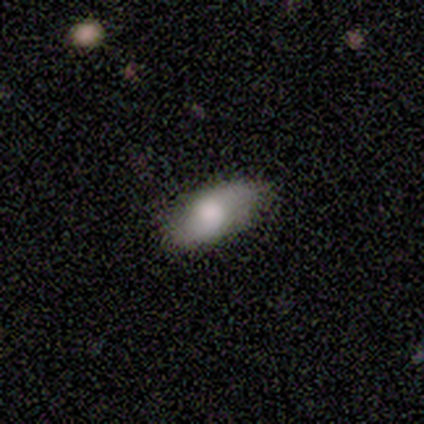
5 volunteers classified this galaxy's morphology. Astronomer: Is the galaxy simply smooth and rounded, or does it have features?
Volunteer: smooth — 40%, tied with featured or disk at 40%.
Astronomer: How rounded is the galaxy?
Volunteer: in between — 100%.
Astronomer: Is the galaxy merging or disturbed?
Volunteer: none — 50%.